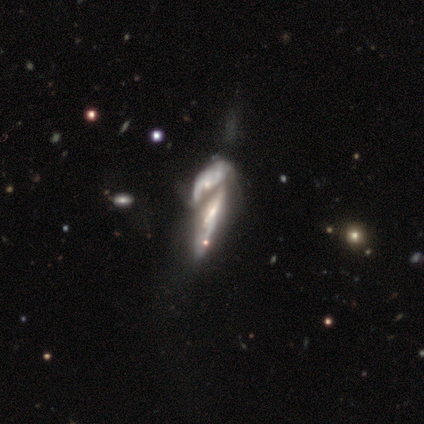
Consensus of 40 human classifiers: smooth-or-featured: featured or disk: 85% | smooth: 10% | star or artifact: 5%
  disk-edge-on: no: 79% | yes: 21%
    bar: no: 63% | weak: 33% | strong: 4%
    has-spiral-arms: no: 59% | yes: 41%
    bulge-size: small: 48% | none: 22% | moderate: 19% | large: 7% | dominant: 4%
  merging: merger: 84% | major disturbance: 8% | none: 5% | minor disturbance: 3%